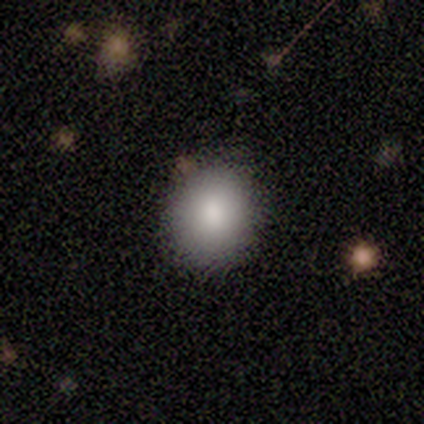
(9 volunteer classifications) A smooth galaxy with no disk features (100%) that is round (100%).

Vote fractions:
- Smooth or featured? smooth: 100% / featured or disk: 0% / star or artifact: 0%
- How rounded? round: 100% / in between: 0% / cigar-shaped: 0%
- Merging? none: 100% / minor disturbance: 0% / major disturbance: 0% / merger: 0%